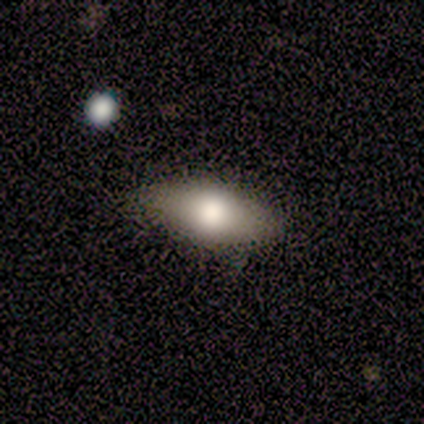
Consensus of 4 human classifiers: Volunteers were most divided on "how rounded": in between: 67%, cigar-shaped: 33%, round: 0%. More confident: smooth or featured — smooth (75%); merging — none (75%).